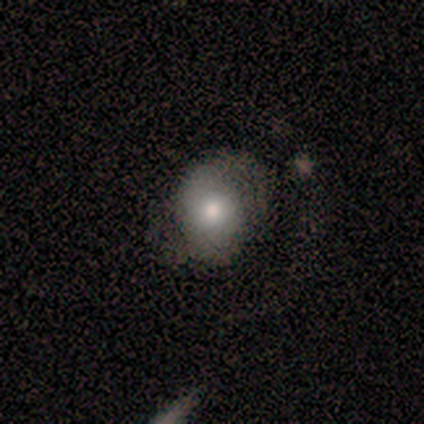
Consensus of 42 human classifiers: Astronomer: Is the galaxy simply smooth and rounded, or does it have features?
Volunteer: smooth — 48%, tied with featured or disk at 48%.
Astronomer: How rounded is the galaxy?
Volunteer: round — 55% (runner-up: in between, 45%).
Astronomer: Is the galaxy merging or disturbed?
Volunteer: none — 55%.